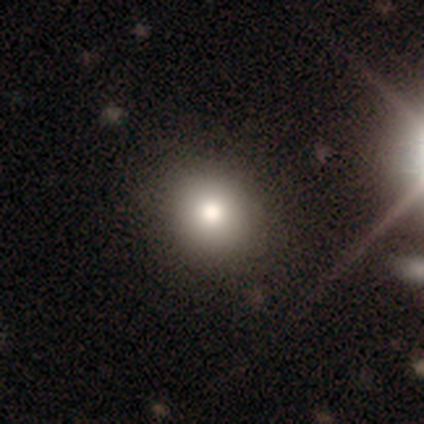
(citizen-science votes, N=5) Volunteers were most divided on "merging": none: 80%, minor disturbance: 20%, major disturbance: 0%, merger: 0%. More confident: smooth or featured — smooth (100%); how rounded — round (100%).